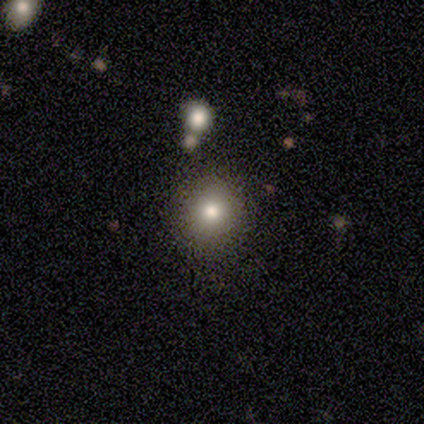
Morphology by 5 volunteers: Smooth or featured?
  - smooth: 80% *
  - star or artifact: 20%
  - featured or disk: 0%
How rounded?
  - round: 100% *
  - in between: 0%
  - cigar-shaped: 0%
Merging?
  - none: 100% *
  - minor disturbance: 0%
  - major disturbance: 0%
  - merger: 0%